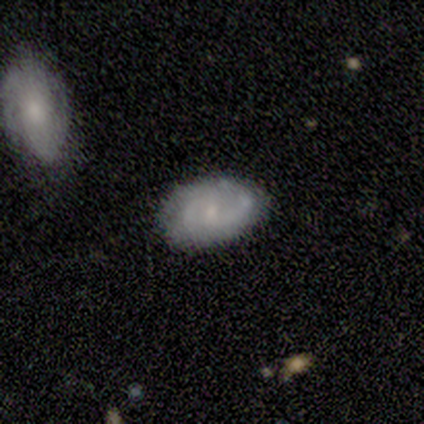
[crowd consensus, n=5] smooth-or-featured: smooth: 60% | featured or disk: 40% | star or artifact: 0%
  how-rounded: in between: 100% | round: 0% | cigar-shaped: 0%
  merging: none: 100% | minor disturbance: 0% | major disturbance: 0% | merger: 0%